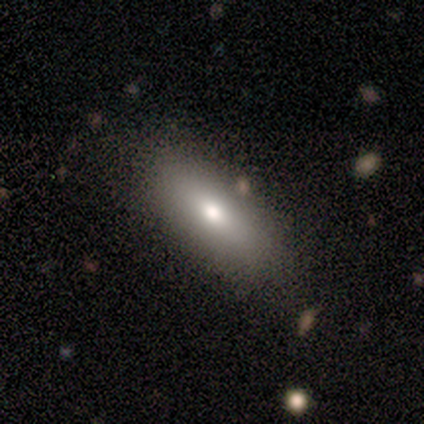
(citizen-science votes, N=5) smooth 60%, featured or disk 40%, star or artifact 0%. Down the decision tree: how rounded — in between (100%); merging — none (80%).